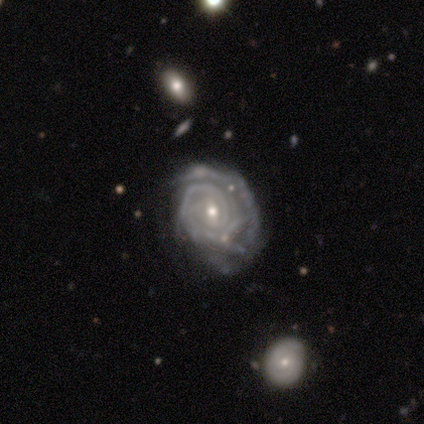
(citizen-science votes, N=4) A featured or disk galaxy (100%) with a weak bar (75%), 3 (50%, tied with can't tell) tight (100%) spiral arms (100%) and a moderate central bulge (50%, tied with small). Merging: none (50%, tied with minor disturbance).